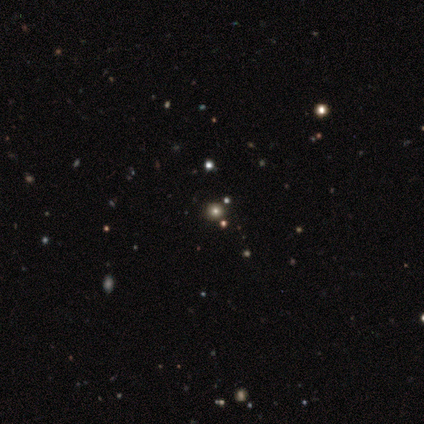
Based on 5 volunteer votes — Smooth or featured: smooth — 80% (featured or disk — 20%)
How rounded: round — 100%
Merging: none — 80% (major disturbance — 20%)